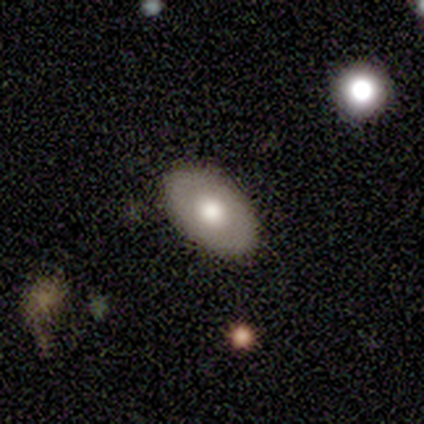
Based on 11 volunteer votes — Morphology: type=featured or disk (55%); edge-on=no (100%); bar=no (100%); spiral arms=no (100%); bulge=moderate (67%); merging=none (91%).